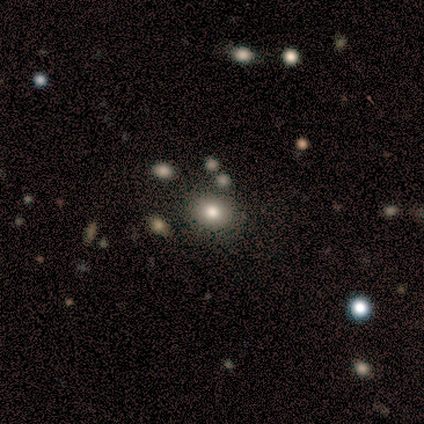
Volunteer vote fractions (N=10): A smooth galaxy with no disk features (70%) that is round (57%). Merging: none (90%).